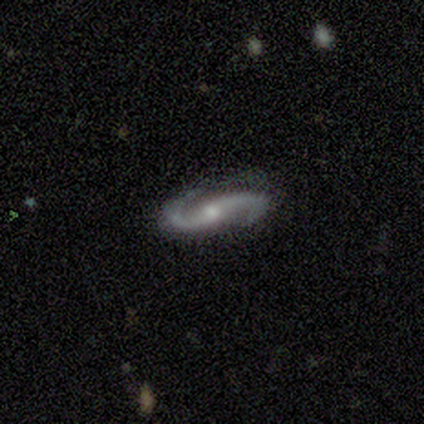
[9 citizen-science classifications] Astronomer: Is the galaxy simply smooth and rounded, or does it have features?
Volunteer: featured or disk — 100%.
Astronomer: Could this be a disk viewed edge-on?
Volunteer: no — 100%.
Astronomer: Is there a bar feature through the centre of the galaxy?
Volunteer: strong — 44% (runner-up: weak, 33%).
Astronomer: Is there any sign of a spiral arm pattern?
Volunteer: yes — 100%.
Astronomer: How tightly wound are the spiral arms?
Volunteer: medium — 56% (runner-up: loose, 44%).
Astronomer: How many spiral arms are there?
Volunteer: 2 — 100%.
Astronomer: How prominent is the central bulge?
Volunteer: small — 67%.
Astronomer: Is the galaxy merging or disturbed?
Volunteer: none — 89%.